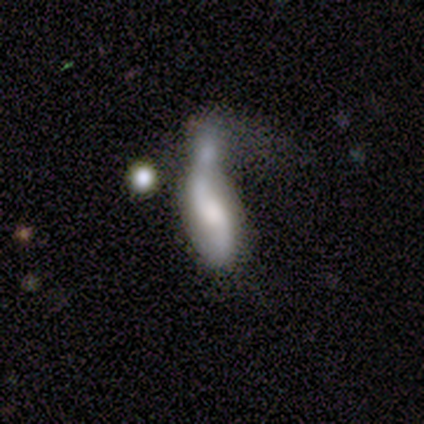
smooth_or_featured: featured or disk (p=0.63) [alt: smooth p=0.23]
disk_edge_on: no (p=1.00)
bar: weak (p=0.47) [tied with: no p=0.47]
has_spiral_arms: yes (p=1.00)
spiral_winding: loose (p=0.68) [alt: medium p=0.26]
spiral_arm_count: 2 (p=0.89) [alt: can't tell p=0.11]
bulge_size: moderate (p=0.42) [alt: large p=0.26]
merging: merger (p=0.62) [alt: major disturbance p=0.31]